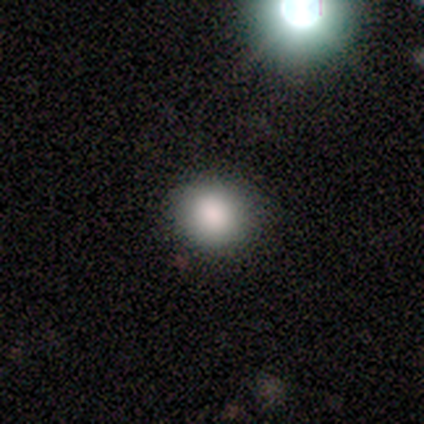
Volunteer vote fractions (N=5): Overall: smooth (100%). How rounded: round (100%). Merging: none (100%).